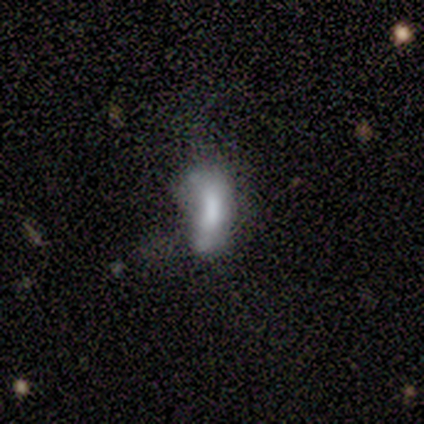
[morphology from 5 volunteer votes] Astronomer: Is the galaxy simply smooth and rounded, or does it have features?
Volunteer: smooth — 60% (runner-up: featured or disk, 40%).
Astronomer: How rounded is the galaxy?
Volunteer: in between — 100%.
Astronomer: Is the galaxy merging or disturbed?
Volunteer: major disturbance — 60% (runner-up: none, 40%).